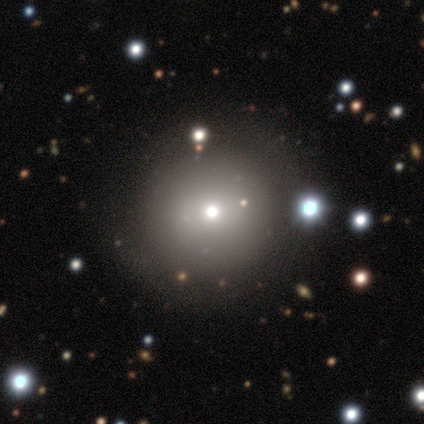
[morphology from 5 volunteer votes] Overall: smooth (80%). How rounded: round (100%). Merging: none (100%).